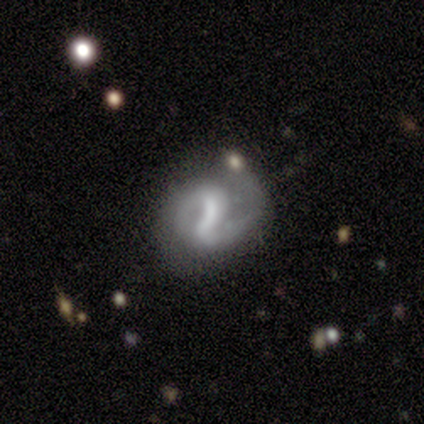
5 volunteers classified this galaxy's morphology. smooth-or-featured: featured or disk: 60% | smooth: 40% | star or artifact: 0%
  disk-edge-on: no: 100% | yes: 0%
    bar: no: 67% | strong: 33% | weak: 0%
    has-spiral-arms: yes: 100% | no: 0%
      spiral-winding: medium: 67% | loose: 33% | tight: 0%
      spiral-arm-count: 2: 100% | 1: 0% | 3: 0% | 4: 0% | more than 4: 0% | can't tell: 0%
    bulge-size: none: 100% | dominant: 0% | large: 0% | moderate: 0% | small: 0%
  merging: major disturbance: 60% | none: 40% | minor disturbance: 0% | merger: 0%